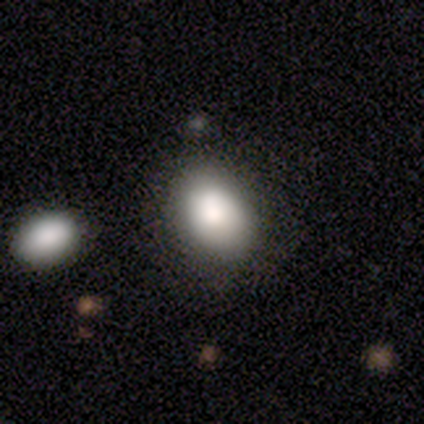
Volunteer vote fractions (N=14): Overall: smooth (86%). How rounded: in between (75%). Merging: none (79%).